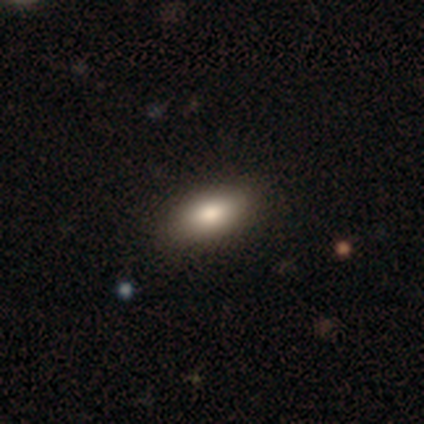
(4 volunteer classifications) Overall: smooth (75%). How rounded: in between (100%). Merging: none (100%).